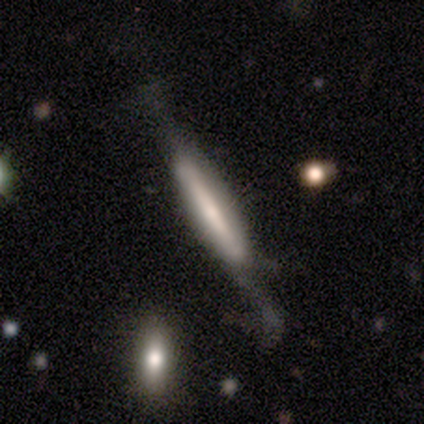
This is likely a smooth galaxy (60%). How rounded: clearly cigar-shaped (100%). Merging: marginally minor disturbance (40%, tied with major disturbance).